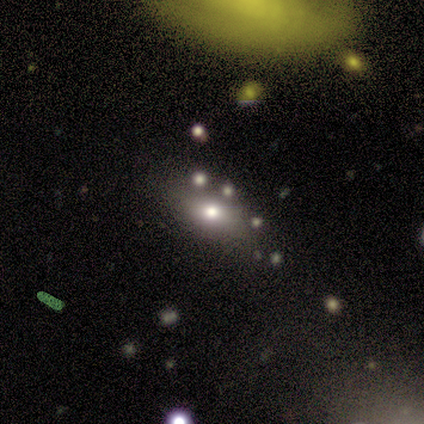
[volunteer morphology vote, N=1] Smooth or featured: smooth — 100%
How rounded: in between — 100%
Merging: none — 100%